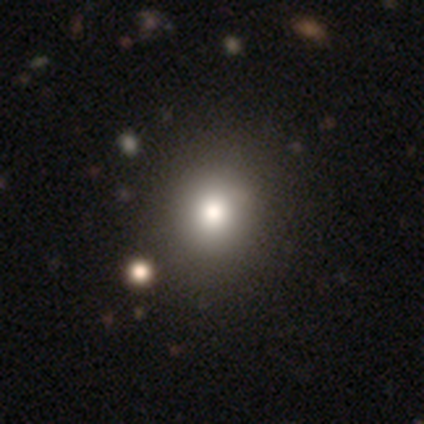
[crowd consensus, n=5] This is likely a smooth galaxy (60%). How rounded: likely round (67%). Merging: clearly none (100%).